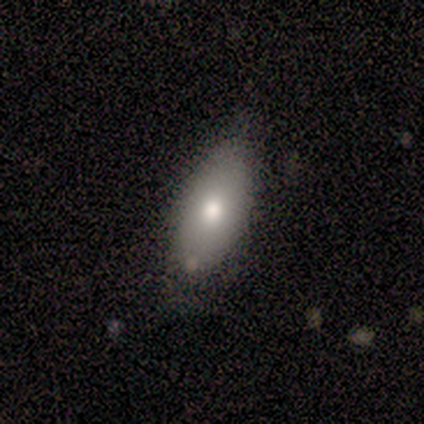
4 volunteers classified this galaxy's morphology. A smooth galaxy with no disk features (75%) that is in between round and cigar-shaped (100%).

Vote fractions:
- Smooth or featured? smooth: 75% / featured or disk: 25% / star or artifact: 0%
- How rounded? in between: 100% / round: 0% / cigar-shaped: 0%
- Merging? none: 75% / minor disturbance: 25% / major disturbance: 0% / merger: 0%